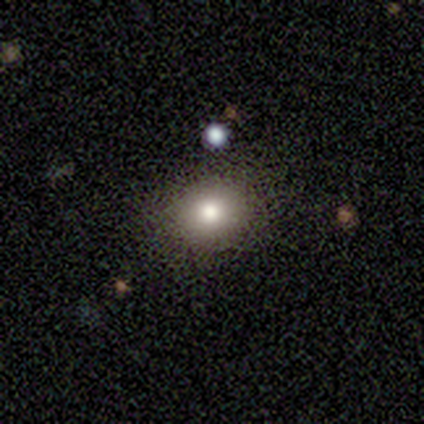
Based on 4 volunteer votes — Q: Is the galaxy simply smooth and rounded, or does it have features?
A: smooth — 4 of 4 (100%).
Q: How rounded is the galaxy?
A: round — 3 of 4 (75%).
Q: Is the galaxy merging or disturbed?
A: none — 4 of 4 (100%).